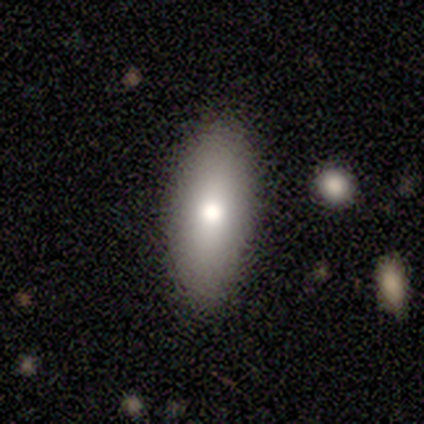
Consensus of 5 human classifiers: A smooth galaxy with no disk features (100%) that is in between round and cigar-shaped (60%). Merging: none (100%).